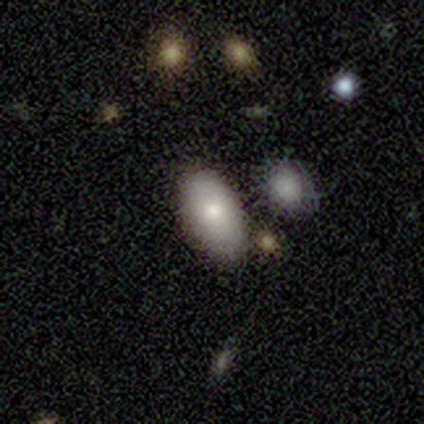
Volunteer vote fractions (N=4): Smooth or featured? 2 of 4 (50%) said featured or disk. Edge-on disk? 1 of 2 (50%, tied with no) said yes. Edge-on bulge? 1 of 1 (100%) said rounded. Merging? 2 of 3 (67%) said minor disturbance.